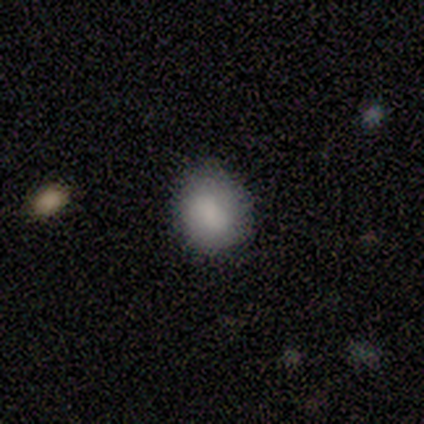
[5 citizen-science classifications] smooth-or-featured: smooth: 100% | featured or disk: 0% | star or artifact: 0%
  how-rounded: round: 80% | in between: 20% | cigar-shaped: 0%
  merging: none: 100% | minor disturbance: 0% | major disturbance: 0% | merger: 0%